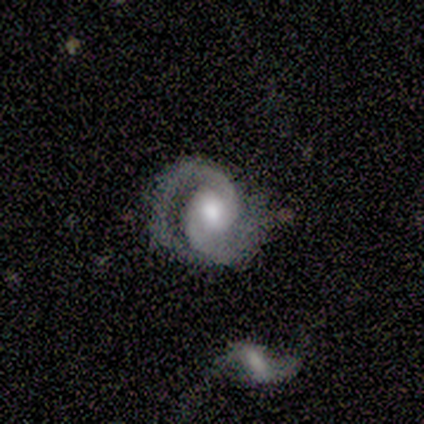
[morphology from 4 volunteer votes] Smooth or featured? 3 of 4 (75%) said featured or disk. Edge-on disk? 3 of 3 (100%) said no. Bar? 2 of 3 (67%) said weak. Spiral arms? 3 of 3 (100%) said yes. Spiral winding? 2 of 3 (67%) said medium. Spiral arm count? 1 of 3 (33%, tied with 2 and can't tell) said 1. Bulge size? 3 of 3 (100%) said moderate. Merging? 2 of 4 (50%) said minor disturbance.